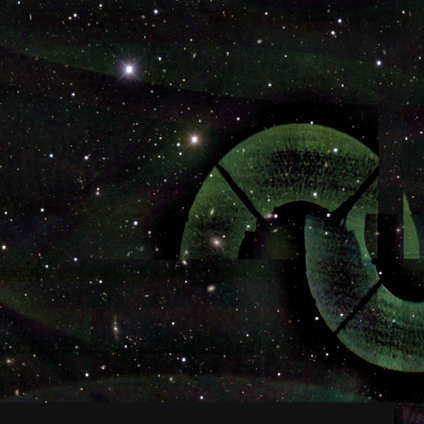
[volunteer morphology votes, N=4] Overall: star or artifact (100%).